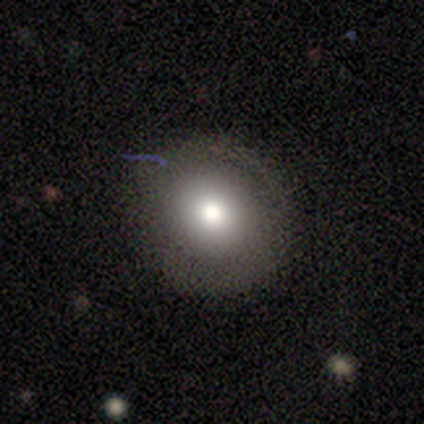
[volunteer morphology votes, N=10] This is possibly a smooth galaxy (50%, tied with featured or disk). How rounded: clearly round (100%). Merging: likely none (70%).